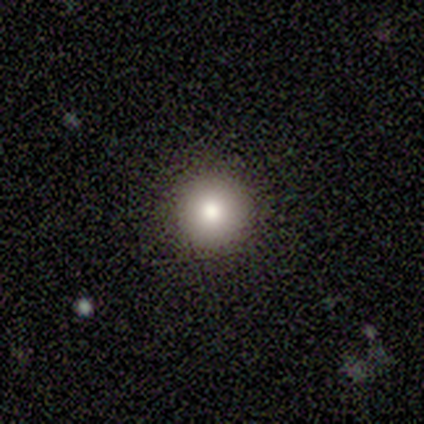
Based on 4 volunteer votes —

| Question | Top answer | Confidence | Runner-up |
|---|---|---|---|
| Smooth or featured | smooth | 100% | — |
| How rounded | round | 100% | — |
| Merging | none | 100% | — |